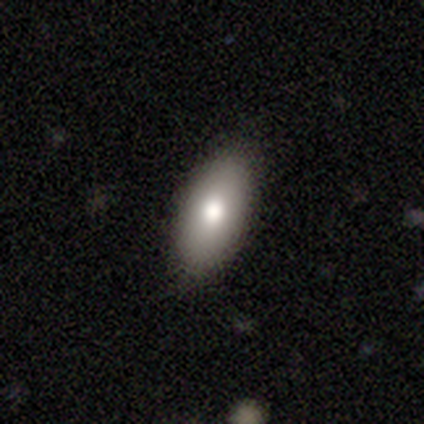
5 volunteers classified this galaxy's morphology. type=smooth (100%); roundness=in between (100%); merging=none (80%).